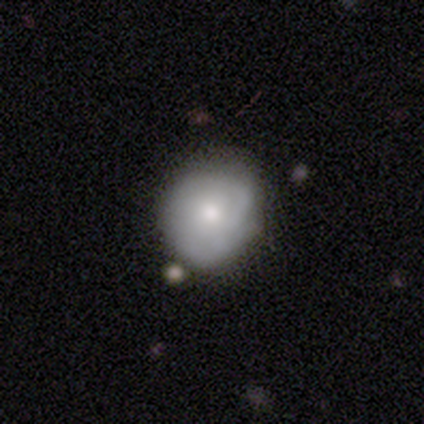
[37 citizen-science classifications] Overall: smooth (59%; featured or disk 38%). How rounded: round (68%; in between 32%). Merging: none (61%; minor disturbance 31%).